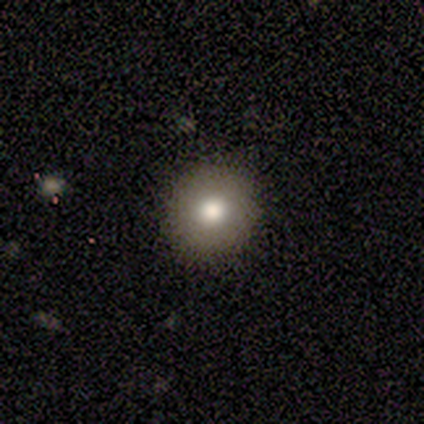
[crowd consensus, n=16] Smooth or featured? 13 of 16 (81%) said smooth. How rounded? 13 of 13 (100%) said round. Merging? 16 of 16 (100%) said none.